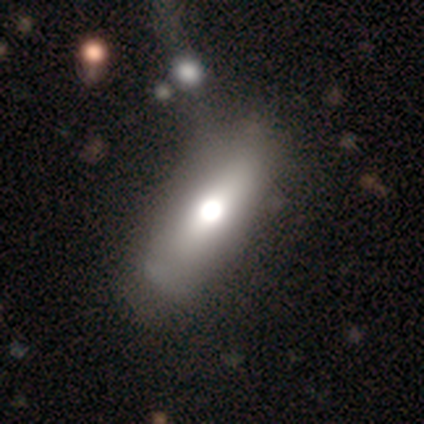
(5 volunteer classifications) Smooth or featured: smooth — 60% (featured or disk — 20%)
How rounded: in between — 67% (round — 33%)
Merging: none — 75% (merger — 25%)